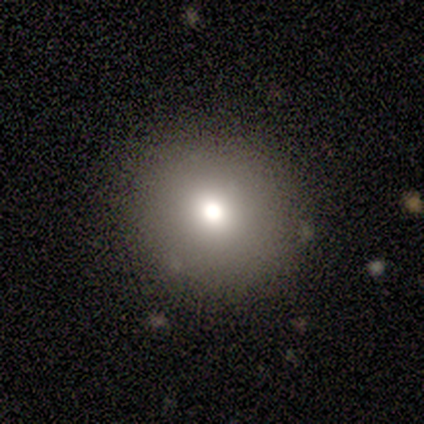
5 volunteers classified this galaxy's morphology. smooth 80%, featured or disk 20%, star or artifact 0%. Down the decision tree: how rounded — round (100%); merging — none (100%).